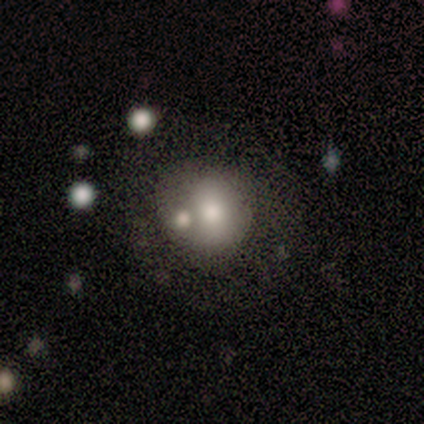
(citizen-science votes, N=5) Smooth or featured: smooth — 80% (star or artifact — 20%)
How rounded: round — 100%
Merging: none — 50% (minor disturbance — 25%)